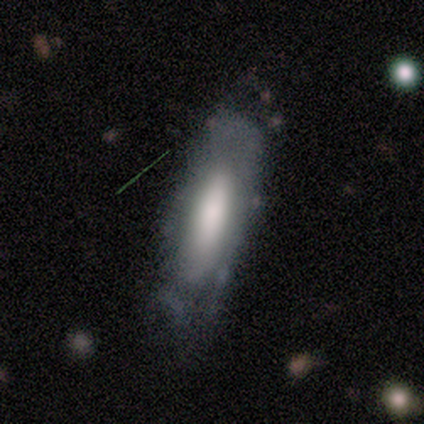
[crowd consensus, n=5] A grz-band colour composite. It shows a smooth galaxy with no disk features (60%) that is cigar-shaped (67%). Merging: none (50%, tied with minor disturbance).